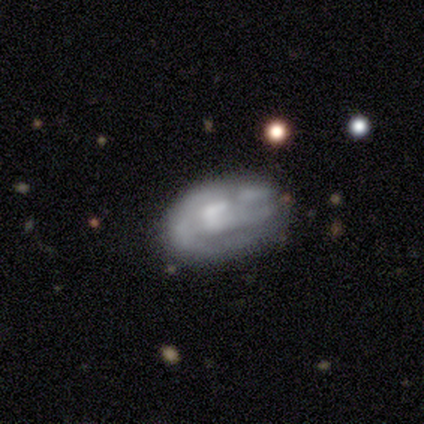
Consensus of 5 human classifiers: Q: Smooth or featured?
A: smooth (60%); runner-up: featured or disk (40%)
Q: How rounded?
A: in between (100%)
Q: Merging?
A: none (100%)